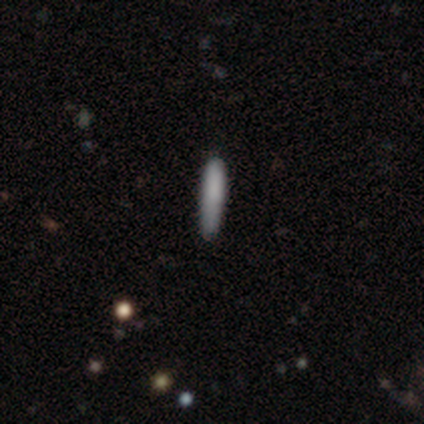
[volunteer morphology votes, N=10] Smooth or featured? 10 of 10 (100%) said smooth. How rounded? 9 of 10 (90%) said cigar-shaped. Merging? 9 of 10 (90%) said none.